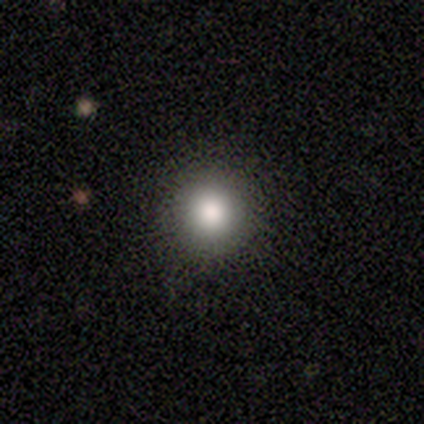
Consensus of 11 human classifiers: smooth 73%, featured or disk 27%, star or artifact 0%. Down the decision tree: how rounded — round (100%); merging — none (82%).